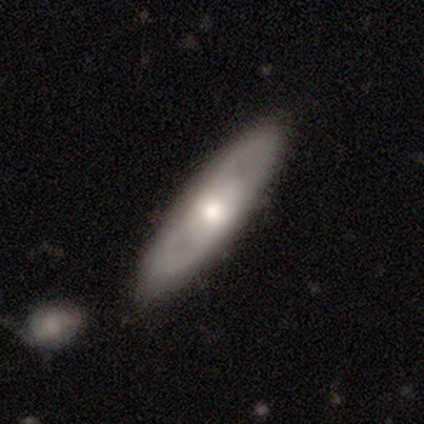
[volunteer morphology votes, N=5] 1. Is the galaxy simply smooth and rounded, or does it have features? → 80% featured or disk, 20% smooth, 0% star or artifact.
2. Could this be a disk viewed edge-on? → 100% no, 0% yes.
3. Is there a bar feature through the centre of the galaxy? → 100% no, 0% strong, 0% weak.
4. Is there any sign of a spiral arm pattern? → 100% no, 0% yes.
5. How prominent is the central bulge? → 50% large (tied), 50% moderate (tied), 0% dominant, 0% small, 0% none.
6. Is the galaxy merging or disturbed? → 100% none, 0% minor disturbance, 0% major disturbance, 0% merger.